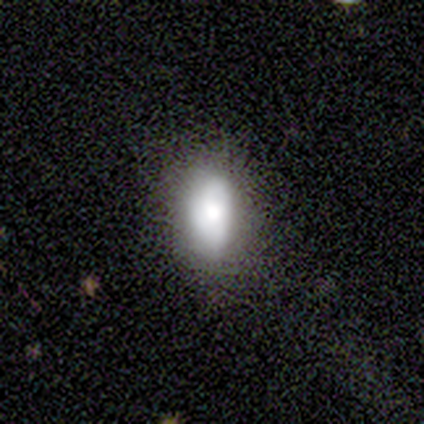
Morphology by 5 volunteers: A smooth galaxy with no disk features (60%) that is in between round and cigar-shaped (100%). Merging: none (80%).